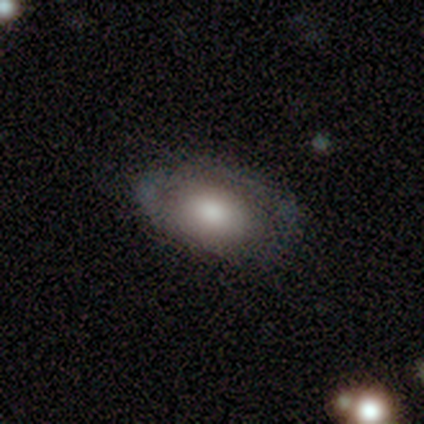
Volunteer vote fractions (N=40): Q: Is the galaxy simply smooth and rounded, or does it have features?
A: smooth — 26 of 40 (65%).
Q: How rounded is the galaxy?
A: in between — 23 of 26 (88%).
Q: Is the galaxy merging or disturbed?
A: none — 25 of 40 (62%).